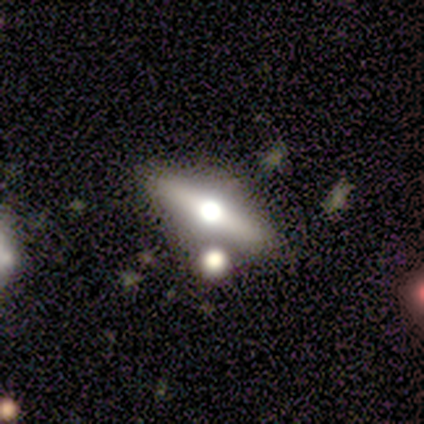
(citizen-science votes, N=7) featured or disk 57%, smooth 29%, star or artifact 14%. Down the decision tree: edge-on disk — yes (100%); edge-on bulge — rounded (75%); merging — none (50%).